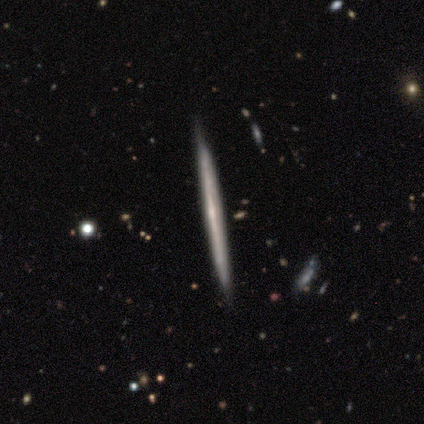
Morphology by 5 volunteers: type=smooth (40%, tied with featured or disk); roundness=cigar-shaped (100%); merging=none (100%).